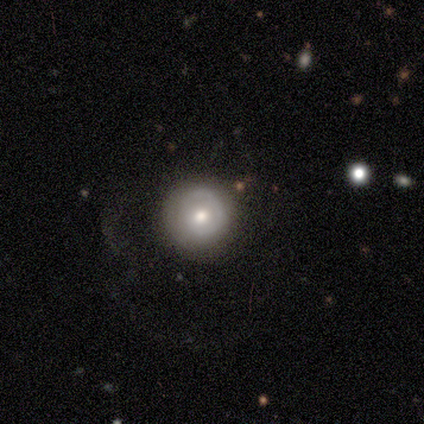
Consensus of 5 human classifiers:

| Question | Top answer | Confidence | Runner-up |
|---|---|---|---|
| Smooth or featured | featured or disk | 60% | smooth (20%) |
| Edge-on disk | no | 100% | — |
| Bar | no | 67% | weak (33%) |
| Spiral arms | no | 100% | — |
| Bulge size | moderate | 100% | — |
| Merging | none | 50% | major disturbance (25%) |